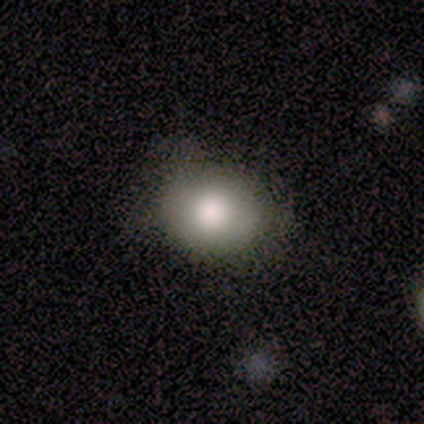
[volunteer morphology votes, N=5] Q: Smooth or featured?
A: smooth (80%); runner-up: featured or disk (20%)
Q: How rounded?
A: in between (75%); runner-up: round (25%)
Q: Merging?
A: none (60%); runner-up: minor disturbance (40%)